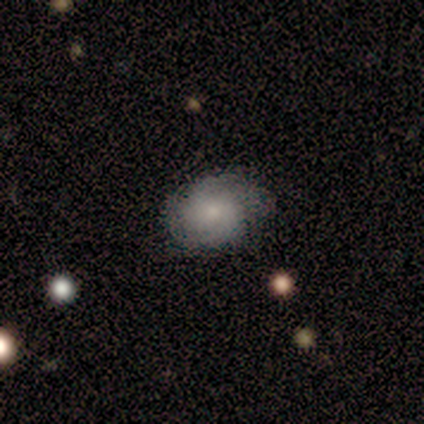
smooth-or-featured: smooth: 100% | featured or disk: 0% | star or artifact: 0%
  how-rounded: in between: 100% | round: 0% | cigar-shaped: 0%
  merging: minor disturbance: 100% | none: 0% | major disturbance: 0% | merger: 0%